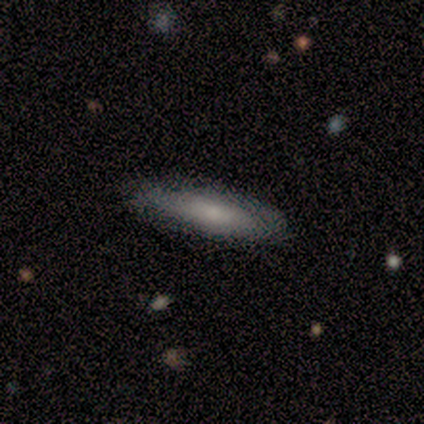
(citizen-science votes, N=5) smooth 100%, featured or disk 0%, star or artifact 0%. Down the decision tree: how rounded — in between (80%); merging — none (100%).